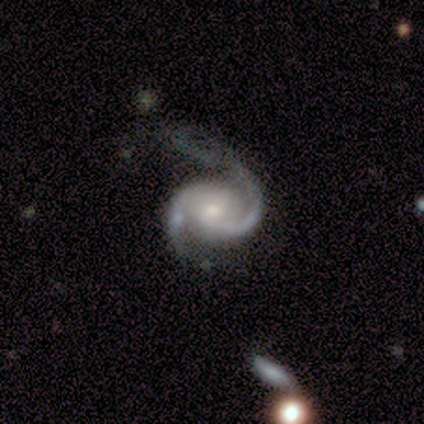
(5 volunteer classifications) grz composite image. It shows a featured or disk galaxy (100%) with a weak bar (80%), 2 (100%) medium (80%) spiral arms (100%) and a small central bulge (80%). Merging: none (60%).